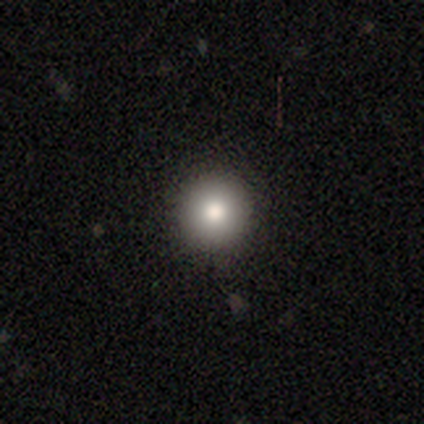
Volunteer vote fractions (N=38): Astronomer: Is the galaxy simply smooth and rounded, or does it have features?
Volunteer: smooth — 66%.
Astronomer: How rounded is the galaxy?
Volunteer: round — 96%.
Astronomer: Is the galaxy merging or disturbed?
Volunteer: none — 94%.